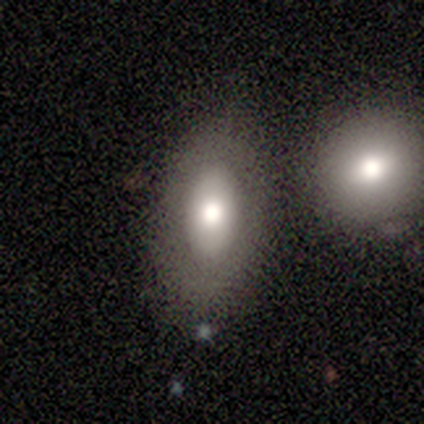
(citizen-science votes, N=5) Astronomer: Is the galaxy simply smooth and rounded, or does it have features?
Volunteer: smooth — 40%, tied with star or artifact at 40%.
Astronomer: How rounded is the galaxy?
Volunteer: in between — 100%.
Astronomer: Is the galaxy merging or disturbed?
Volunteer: none — 100%.